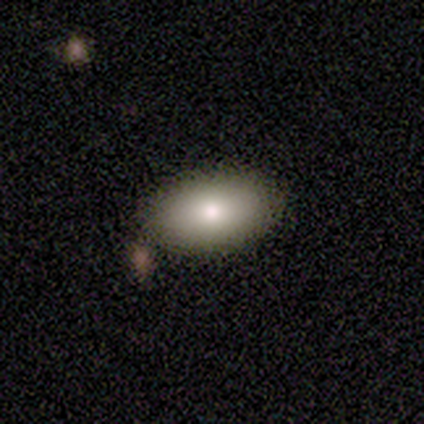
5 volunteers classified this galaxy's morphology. A smooth galaxy with no disk features (80%) that is in between round and cigar-shaped (75%).

Vote fractions:
- Smooth or featured? smooth: 80% / featured or disk: 20% / star or artifact: 0%
- How rounded? in between: 75% / round: 25% / cigar-shaped: 0%
- Merging? none: 100% / minor disturbance: 0% / major disturbance: 0% / merger: 0%